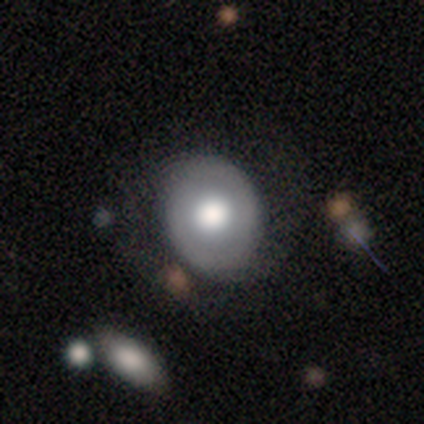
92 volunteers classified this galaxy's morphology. Volunteers were most divided on "smooth or featured": smooth: 57%, featured or disk: 38%, star or artifact: 5%. More confident: merging — none (70%); how rounded — round (62%).